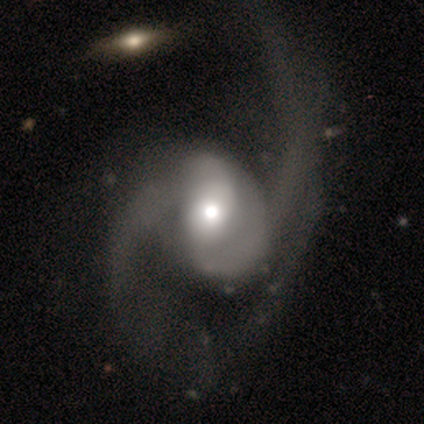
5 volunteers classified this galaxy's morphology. A featured or disk galaxy (80%) with no bar (100%), 2 (100%) medium (67%) spiral arms (100%) and a moderate central bulge (100%). Merging: major disturbance (100%).